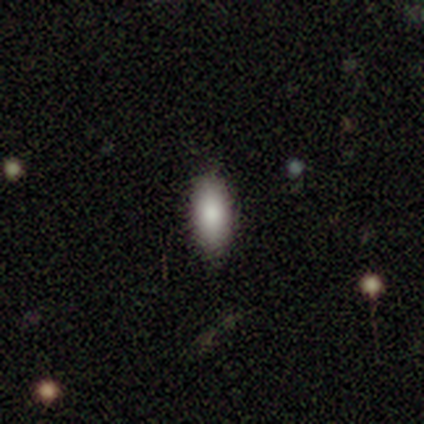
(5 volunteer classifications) Overall: smooth (100%). How rounded: in between (80%). Merging: none (60%; minor disturbance 40%).